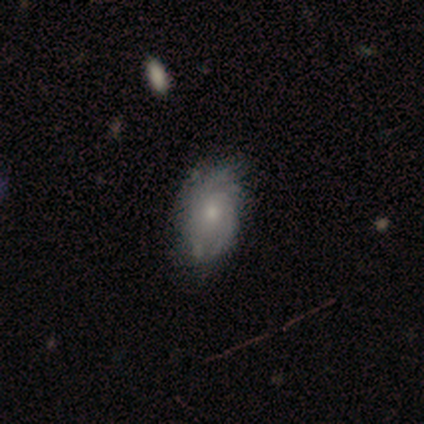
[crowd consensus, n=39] Smooth or featured?
  - featured or disk: 72% *
  - smooth: 23%
  - star or artifact: 5%
Edge-on disk?
  - no: 96% *
  - yes: 4%
Bar?
  - no: 81% *
  - weak: 19%
  - strong: 0%
Spiral arms?
  - yes: 93% *
  - no: 7%
Spiral winding?
  - tight: 52% *
  - medium: 36%
  - loose: 12%
Spiral arm count?
  - can't tell: 56% *
  - 2: 28%
  - more than 4: 8%
  - 1: 4%
  - 4: 4%
  - 3: 0%
Bulge size?
  - moderate: 48% *
  - small: 41%
  - none: 11%
  - dominant: 0%
  - large: 0%
Merging?
  - none: 57% *
  - minor disturbance: 35%
  - major disturbance: 8%
  - merger: 0%